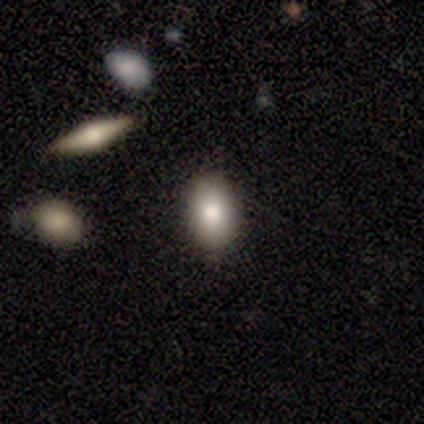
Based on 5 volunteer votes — This appears to be a smooth galaxy with no disk features (80%) that is in between round and cigar-shaped (100%). Merging: none (80%).